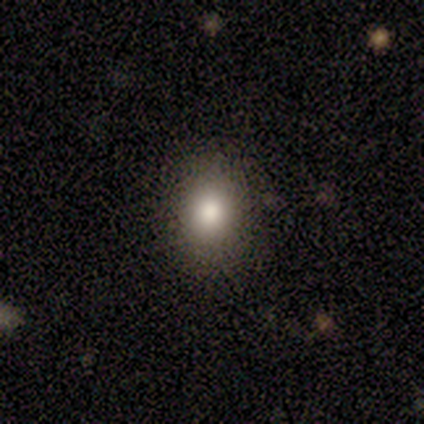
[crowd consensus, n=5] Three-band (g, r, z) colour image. It shows a smooth galaxy with no disk features (60%) that is round (67%). Merging: none (67%).